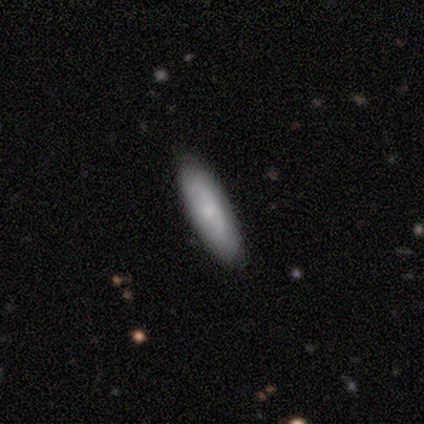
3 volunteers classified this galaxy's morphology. Q: Smooth or featured?
A: smooth (100%)
Q: How rounded?
A: in between (67%); runner-up: cigar-shaped (33%)
Q: Merging?
A: none (67%); runner-up: minor disturbance (33%)